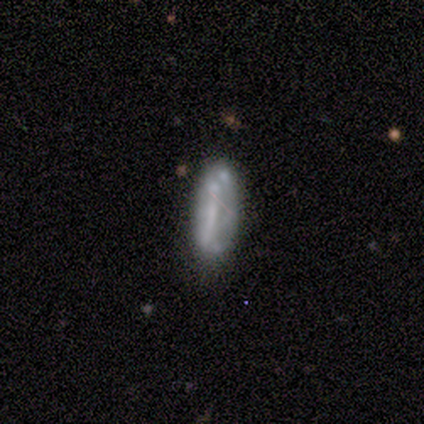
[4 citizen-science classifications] This appears to be a featured or disk galaxy (75%) with no bar (67%), no spiral arms (100%) and no central bulge (67%). Merging: none (50%).